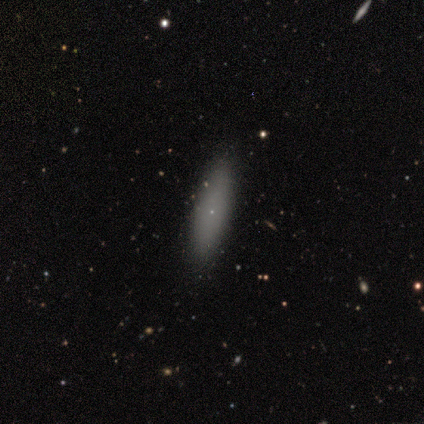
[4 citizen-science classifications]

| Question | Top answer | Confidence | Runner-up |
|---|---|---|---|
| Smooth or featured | smooth | 75% | star or artifact (25%) |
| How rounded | cigar-shaped | 67% | in between (33%) |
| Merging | none | 100% | — |